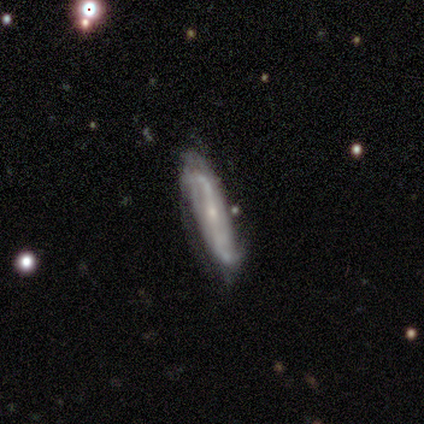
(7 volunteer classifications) A featured or disk galaxy (71%) with a strong bar (50%, tied with no), 2 (100%) medium (50%) spiral arms (100%) and a small central bulge (100%). Merging: none (57%).